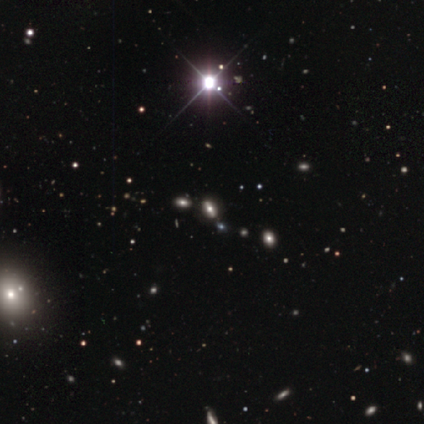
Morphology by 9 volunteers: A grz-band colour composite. It shows a star or artifact, not a galaxy (67%).